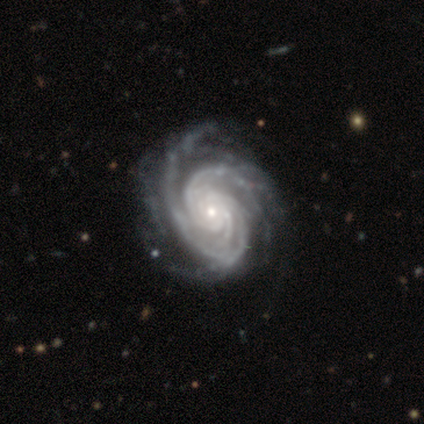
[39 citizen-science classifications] Volunteers were most divided on "spiral arm count": more than 4: 34%, 3: 26%, can't tell: 16%, 2: 13%, 4: 8%, 1: 3%. Remaining: edge-on disk — no (100%); spiral arms — yes (100%); smooth or featured — featured or disk (97%); bar — no (84%); spiral winding — tight (71%); bulge size — small (68%); merging — none (49%).